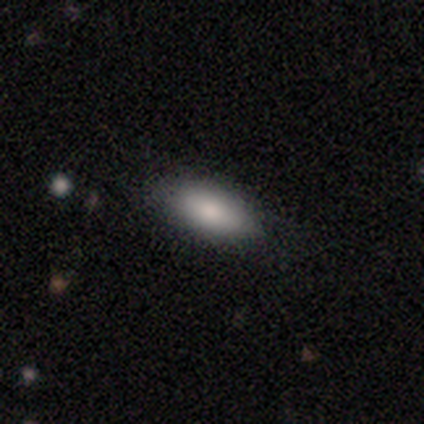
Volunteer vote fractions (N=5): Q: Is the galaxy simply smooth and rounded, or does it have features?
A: smooth — 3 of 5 (60%).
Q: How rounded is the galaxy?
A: in between — 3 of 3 (100%).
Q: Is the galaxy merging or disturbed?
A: none — 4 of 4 (100%).